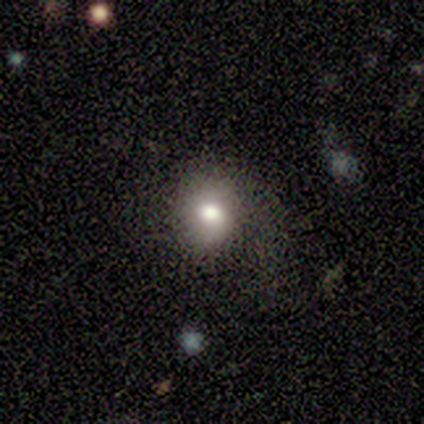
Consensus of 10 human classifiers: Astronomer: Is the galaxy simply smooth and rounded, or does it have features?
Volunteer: smooth — 60%.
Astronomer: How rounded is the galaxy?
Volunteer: round — 83%.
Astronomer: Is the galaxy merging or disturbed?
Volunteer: none — 43% (runner-up: minor disturbance, 29%).